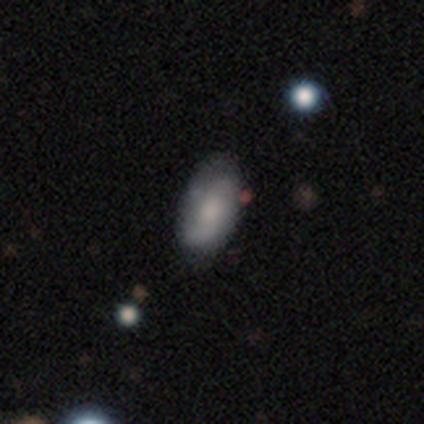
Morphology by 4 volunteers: Overall: featured or disk (75%). Edge-on disk: no (100%). Bar: weak (67%; no 33%). Spiral arms: yes (100%). Spiral arm count: 2 (100%). Spiral winding: loose (67%; tight 33%). Bulge size: moderate (33%, tied with small and none). Merging: none (75%).